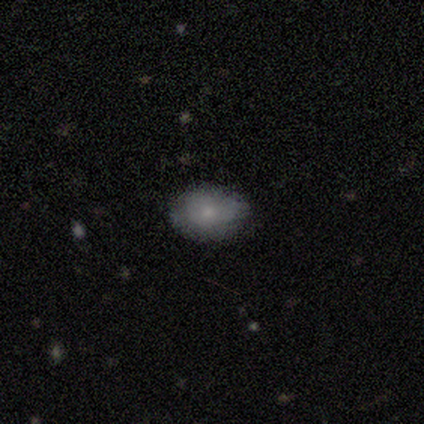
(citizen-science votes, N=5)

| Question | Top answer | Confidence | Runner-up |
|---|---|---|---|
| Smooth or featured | smooth | 80% | star or artifact (20%) |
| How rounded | in between | 100% | — |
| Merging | none | 100% | — |